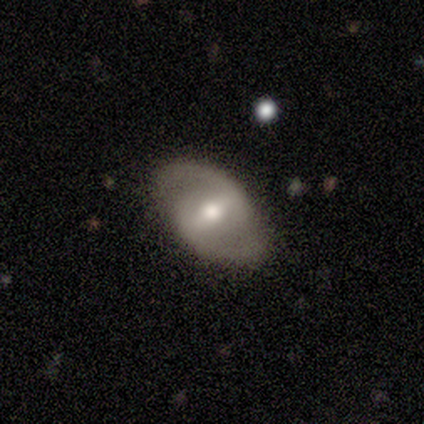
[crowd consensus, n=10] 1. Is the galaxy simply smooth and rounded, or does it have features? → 80% featured or disk, 20% smooth, 0% star or artifact.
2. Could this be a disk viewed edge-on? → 100% no, 0% yes.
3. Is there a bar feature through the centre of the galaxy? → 50% weak, 38% strong, 12% no.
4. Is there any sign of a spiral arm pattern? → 88% yes, 12% no.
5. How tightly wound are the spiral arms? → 57% loose, 29% medium, 14% tight.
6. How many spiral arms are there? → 100% 2, 0% 1, 0% 3, 0% 4, 0% more than 4, 0% can't tell.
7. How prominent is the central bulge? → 75% moderate, 12% large, 12% small, 0% dominant, 0% none.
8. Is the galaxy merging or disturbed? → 90% none, 10% major disturbance, 0% minor disturbance, 0% merger.